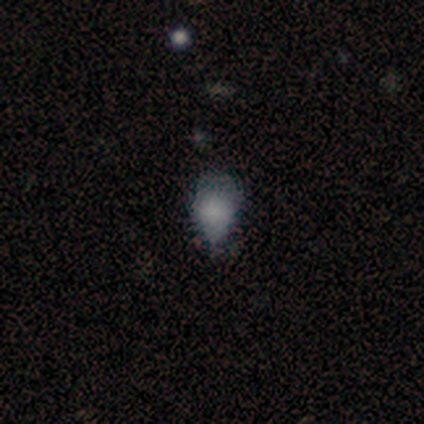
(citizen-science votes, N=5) Smooth or featured? smooth (40%, tied with star or artifact)
How rounded? in between (100%)
Merging? minor disturbance (100%)